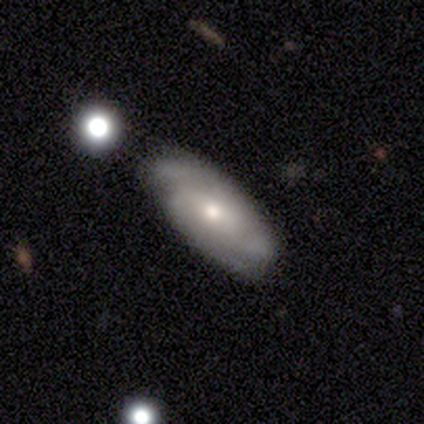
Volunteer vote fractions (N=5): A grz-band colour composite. It shows a featured or disk galaxy (80%) with no bar (100%), 2 (100%) tight (50%, tied with medium) spiral arms (100%) and a moderate central bulge (50%, tied with small). Merging: none (60%).